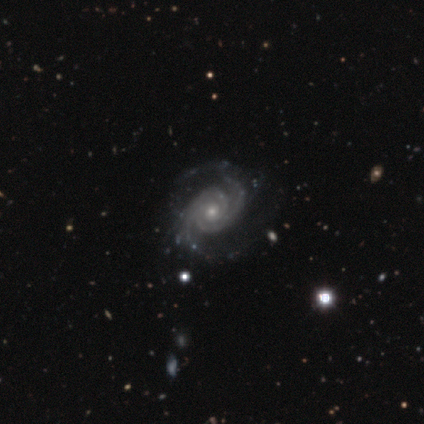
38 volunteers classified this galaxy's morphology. Q: Smooth or featured?
A: featured or disk (100%)
Q: Edge-on disk?
A: no (100%)
Q: Bar?
A: no (82%); runner-up: weak (18%)
Q: Spiral arms?
A: yes (100%)
Q: Spiral winding?
A: tight (66%); runner-up: medium (24%)
Q: Spiral arm count?
A: 2 (68%); runner-up: 3 (16%)
Q: Bulge size?
A: small (55%); runner-up: moderate (39%)
Q: Merging?
A: none (42%); runner-up: minor disturbance (5%)